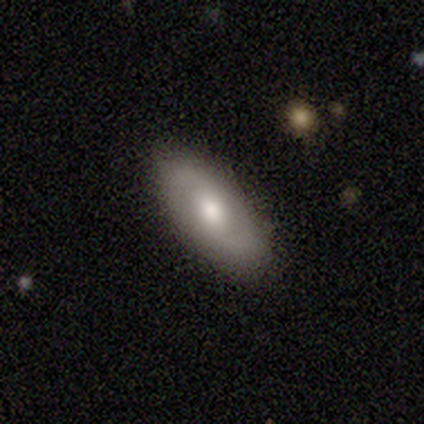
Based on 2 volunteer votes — A smooth galaxy with no disk features (50%, tied with featured or disk) that is in between round and cigar-shaped (100%). Merging: none (100%).